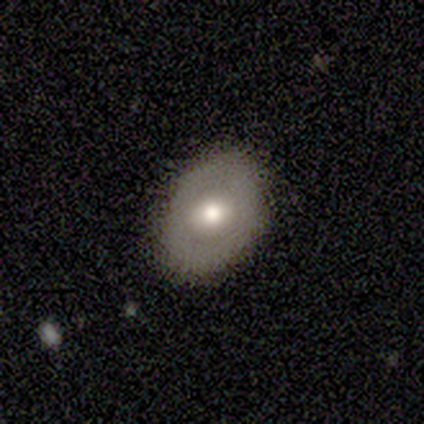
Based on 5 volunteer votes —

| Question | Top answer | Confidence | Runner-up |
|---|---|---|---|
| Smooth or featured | smooth | 60% | featured or disk (20%) |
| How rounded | in between | 67% | round (33%) |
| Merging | none | 75% | minor disturbance (25%) |